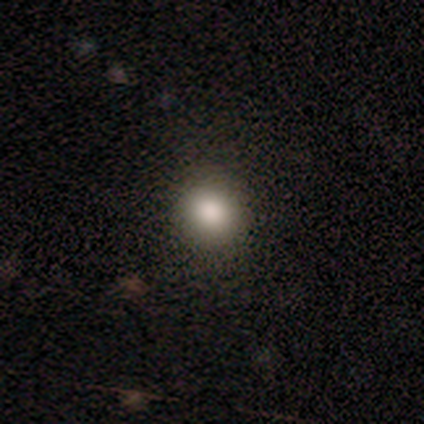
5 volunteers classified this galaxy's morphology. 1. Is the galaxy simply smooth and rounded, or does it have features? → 60% smooth, 20% featured or disk, 20% star or artifact.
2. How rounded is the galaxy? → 100% round, 0% in between, 0% cigar-shaped.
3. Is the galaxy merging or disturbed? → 100% none, 0% minor disturbance, 0% major disturbance, 0% merger.